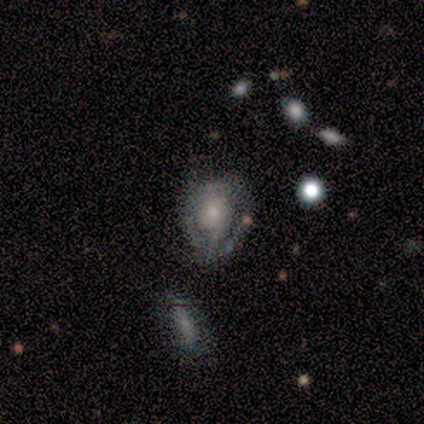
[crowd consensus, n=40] A featured or disk galaxy (68%) with no bar (76%), 2 (41%, tied with can't tell) tight (35%, tied with loose) spiral arms (68%) and a small central bulge (52%). Merging: none (42%).